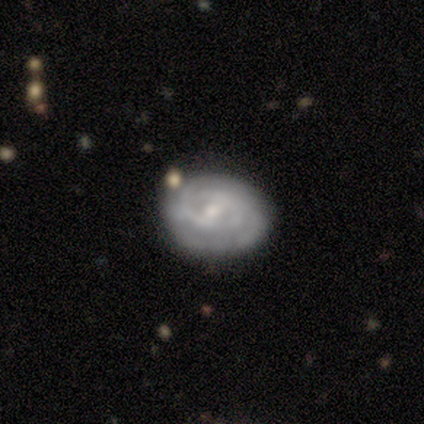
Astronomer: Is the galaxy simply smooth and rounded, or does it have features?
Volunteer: featured or disk — 60%.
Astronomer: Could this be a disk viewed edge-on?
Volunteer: no — 100%.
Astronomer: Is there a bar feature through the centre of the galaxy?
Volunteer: strong — 33%, tied with weak and no at 33%.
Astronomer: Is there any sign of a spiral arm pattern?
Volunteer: yes — 67%.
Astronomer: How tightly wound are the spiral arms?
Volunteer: tight — 100%.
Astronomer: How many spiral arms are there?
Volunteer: can't tell — 100%.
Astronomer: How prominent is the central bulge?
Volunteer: small — 100%.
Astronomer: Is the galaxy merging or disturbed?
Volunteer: none — 75%.